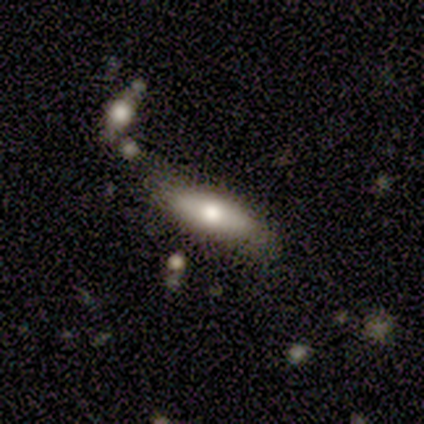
A featured or disk galaxy (60%) viewed edge-on (67%) with a rounded central bulge (100%). Merging: none (50%).